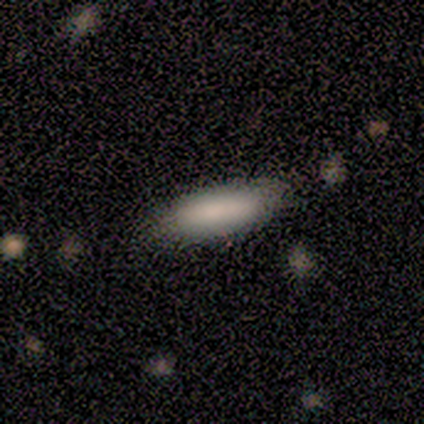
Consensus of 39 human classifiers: Smooth or featured? smooth (82%)
How rounded? cigar-shaped (56%)
Merging? none (71%)